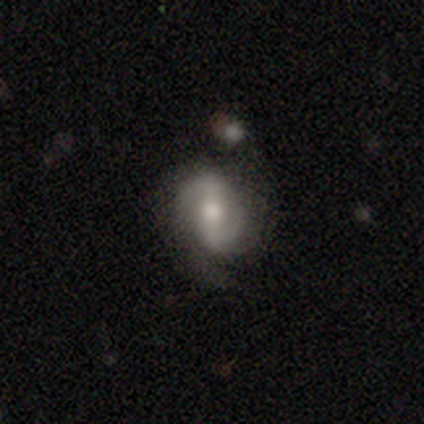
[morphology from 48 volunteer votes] This appears to be a featured or disk galaxy (88%) with a weak bar (43%), 2 (81%) medium (42%) spiral arms (86%) and a moderate central bulge (64%). Merging: none (65%).